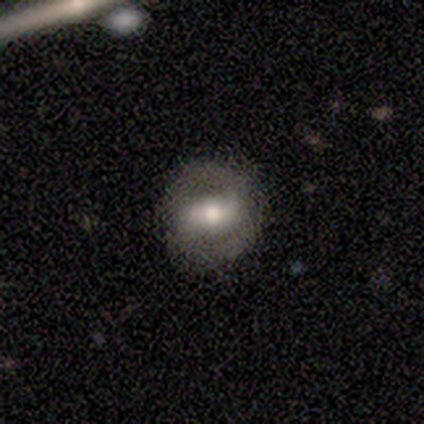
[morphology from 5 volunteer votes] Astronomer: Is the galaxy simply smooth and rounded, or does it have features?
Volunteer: featured or disk — 100%.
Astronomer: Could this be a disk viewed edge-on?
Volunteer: no — 100%.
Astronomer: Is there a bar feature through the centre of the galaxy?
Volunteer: strong — 60% (runner-up: weak, 40%).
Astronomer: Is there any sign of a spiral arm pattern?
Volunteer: yes — 60% (runner-up: no, 40%).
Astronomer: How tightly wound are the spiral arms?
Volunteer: medium — 67%.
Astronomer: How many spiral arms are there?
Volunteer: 2 — 100%.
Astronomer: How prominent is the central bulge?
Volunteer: moderate — 80%.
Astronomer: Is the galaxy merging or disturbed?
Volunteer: none — 80%.